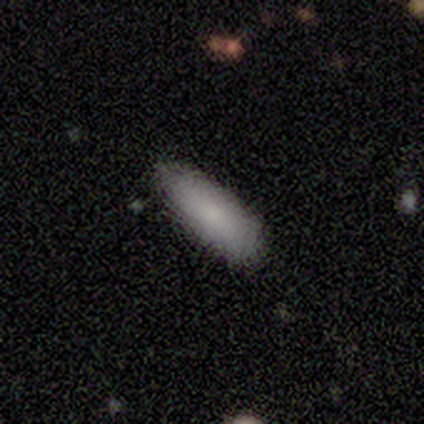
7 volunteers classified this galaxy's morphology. Smooth or featured? 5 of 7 (71%) said smooth. How rounded? 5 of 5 (100%) said in between. Merging? 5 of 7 (71%) said none.